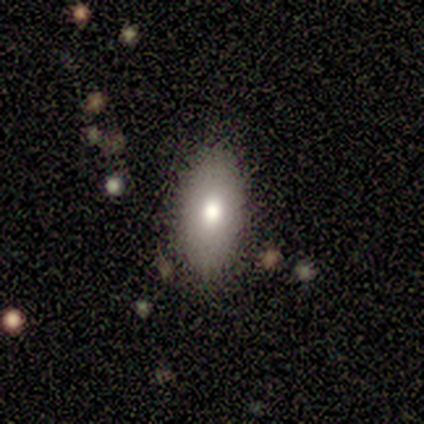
Volunteers were most divided on "smooth or featured": smooth: 75%, featured or disk: 25%, star or artifact: 0%. More confident: how rounded — in between (100%); merging — none (100%).